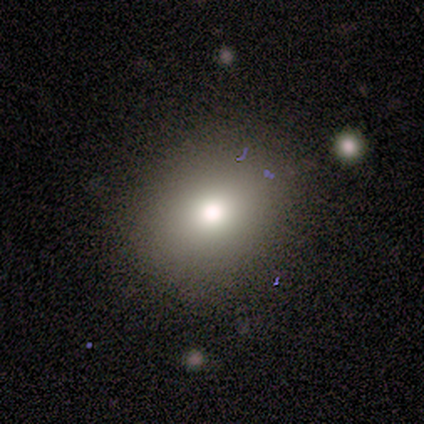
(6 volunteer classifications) A smooth galaxy with no disk features (83%) that is round (80%).

Vote fractions:
- Smooth or featured? smooth: 83% / star or artifact: 17% / featured or disk: 0%
- How rounded? round: 80% / in between: 20% / cigar-shaped: 0%
- Merging? none: 100% / minor disturbance: 0% / major disturbance: 0% / merger: 0%